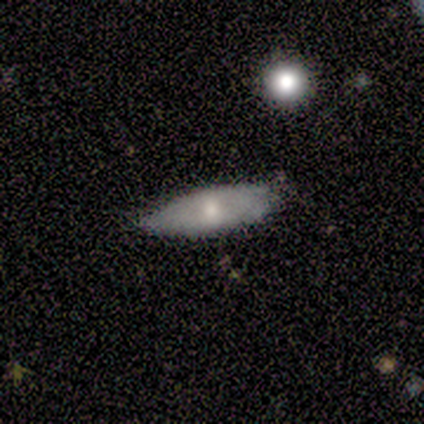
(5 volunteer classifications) This appears to be a smooth galaxy with no disk features (60%) that is in between round and cigar-shaped (100%). Merging: minor disturbance (80%).